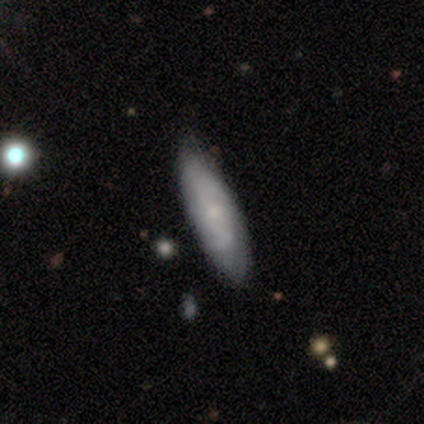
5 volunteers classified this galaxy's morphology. Smooth or featured: smooth — 60% (featured or disk — 40%)
How rounded: in between — 67% (cigar-shaped — 33%)
Merging: none — 80% (minor disturbance — 20%)